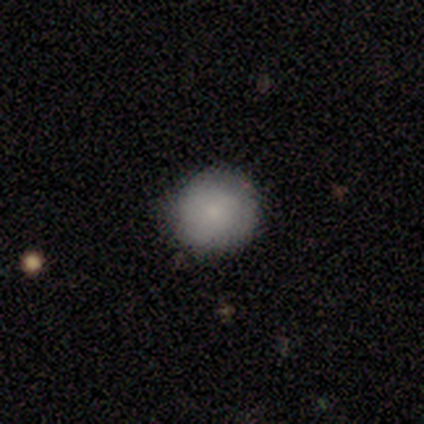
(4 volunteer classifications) Morphology: type=smooth (75%); roundness=round (100%); merging=none (100%).